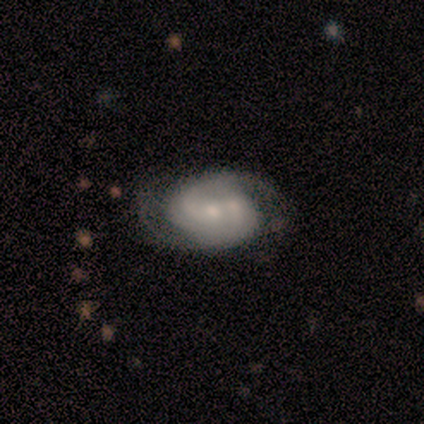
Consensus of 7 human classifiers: Morphology: type=featured or disk (86%); edge-on=no (100%); bar=no (83%); spiral arms=yes (100%); winding=tight (50%, tied with medium); arm count=2 (67%); bulge=small (67%); merging=none (57%).